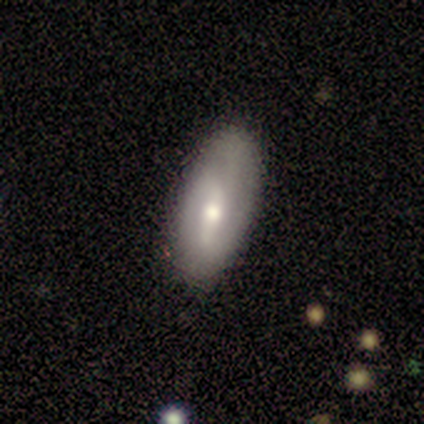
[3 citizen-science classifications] Volunteers were most divided on "smooth or featured": smooth: 67%, featured or disk: 33%, star or artifact: 0%. More confident: how rounded — in between (100%); merging — none (100%).